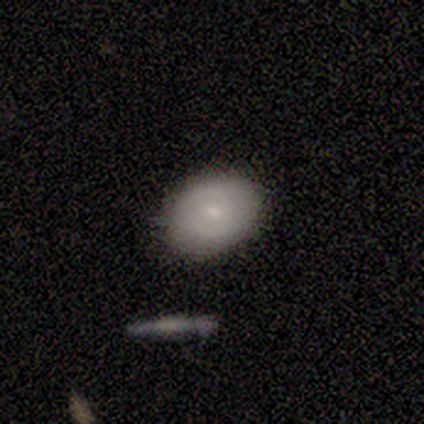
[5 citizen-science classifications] This is clearly a smooth galaxy (80%). How rounded: likely in between (75%). Merging: clearly none (100%).